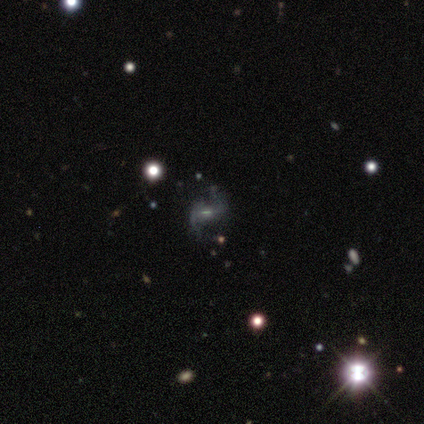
Smooth or featured? featured or disk (67%)
Edge-on disk? no (75%)
Bar? weak (67%)
Spiral arms? yes (100%)
Spiral winding? loose (100%)
Spiral arm count? 2 (100%)
Bulge size? moderate (67%)
Merging? none (100%)